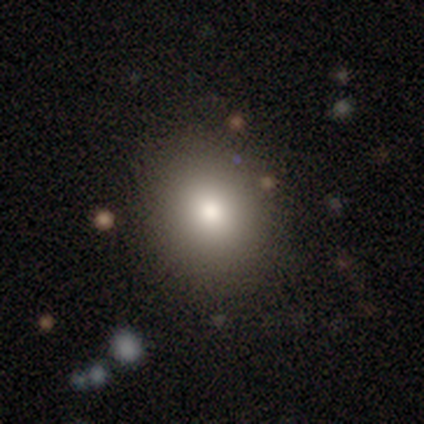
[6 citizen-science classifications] This is likely a smooth galaxy (67%). How rounded: likely round (75%). Merging: clearly none (80%).